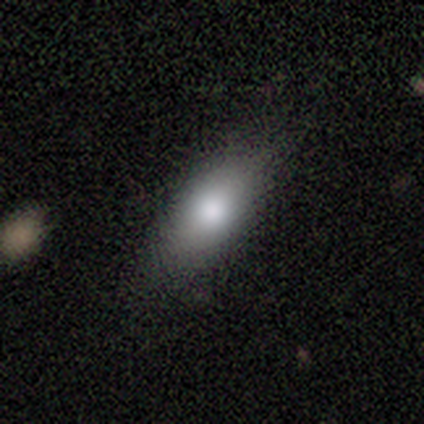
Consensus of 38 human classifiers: Overall: smooth (82%). How rounded: in between (84%). Merging: none (81%).